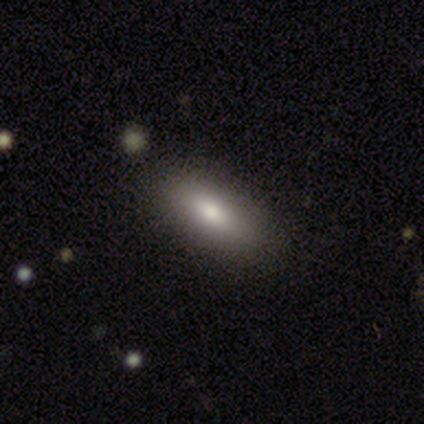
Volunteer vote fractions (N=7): Volunteers were most divided on "smooth or featured": smooth: 71%, featured or disk: 29%, star or artifact: 0%. More confident: merging — none (100%); how rounded — in between (80%).